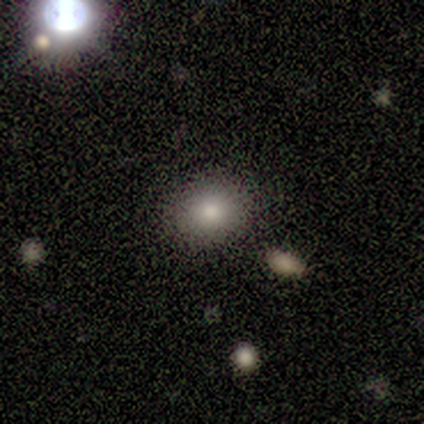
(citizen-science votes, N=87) Overall: smooth (80%). How rounded: round (73%). Merging: none (84%).